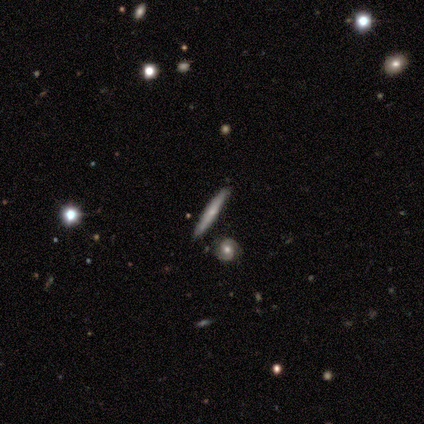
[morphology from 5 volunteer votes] Smooth or featured? 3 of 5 (60%) said featured or disk. Edge-on disk? 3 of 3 (100%) said yes. Edge-on bulge? 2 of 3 (67%) said none. Merging? 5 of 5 (100%) said none.